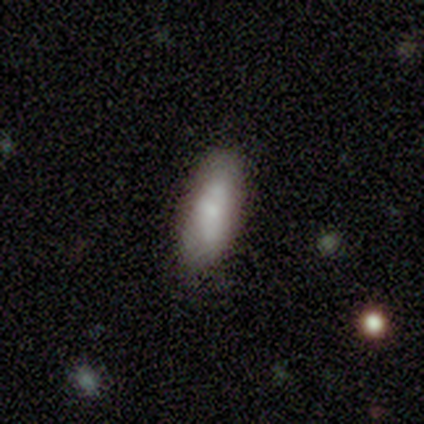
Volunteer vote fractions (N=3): This appears to be a smooth galaxy with no disk features (67%) that is in between round and cigar-shaped (100%). Merging: none (67%).